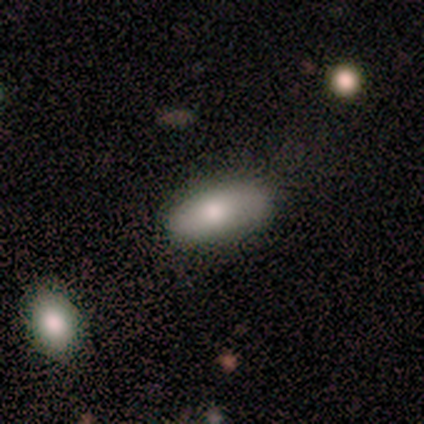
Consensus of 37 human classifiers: Smooth or featured: smooth — 86% (featured or disk — 8%)
How rounded: in between — 78% (cigar-shaped — 22%)
Merging: none — 77% (minor disturbance — 9%)